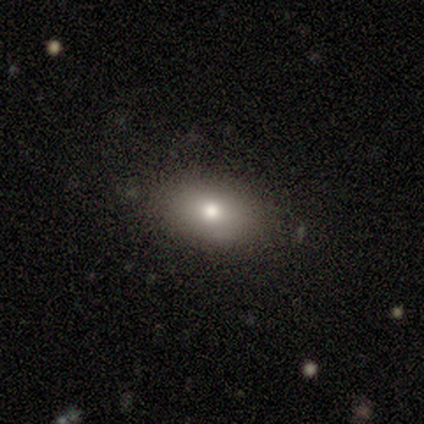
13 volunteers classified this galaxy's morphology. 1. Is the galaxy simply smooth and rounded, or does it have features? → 77% smooth, 23% star or artifact, 0% featured or disk.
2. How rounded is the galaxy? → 90% in between, 10% round, 0% cigar-shaped.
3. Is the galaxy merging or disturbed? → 90% none, 10% minor disturbance, 0% major disturbance, 0% merger.